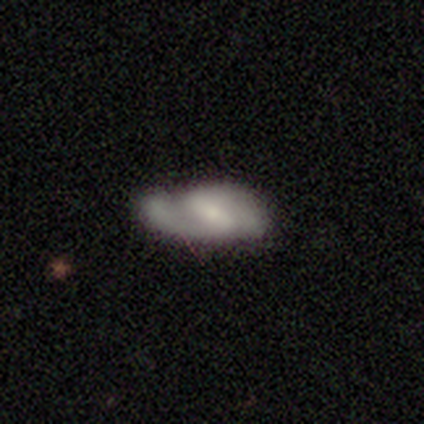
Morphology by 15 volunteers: featured or disk 47%, smooth 40%, star or artifact 13%. Down the decision tree: edge-on disk — no (100%); bar — weak (71%); spiral arms — yes (100%); spiral arm count — 2 (100%); spiral winding — medium (57%); bulge size — small (71%); merging — major disturbance (31%).